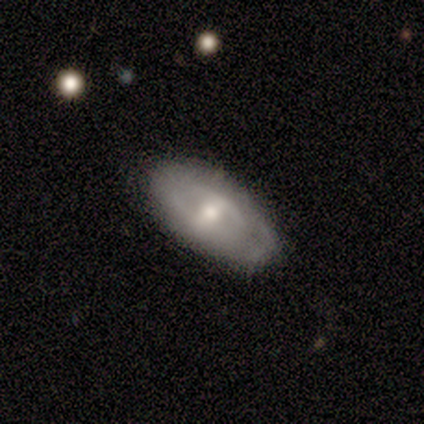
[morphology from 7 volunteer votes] Volunteers were most divided on "smooth or featured": featured or disk: 57%, smooth: 43%, star or artifact: 0%. More confident: edge-on disk — no (75%); bar — no (67%); spiral arms — no (67%); bulge size — moderate (67%); merging — none (57%).